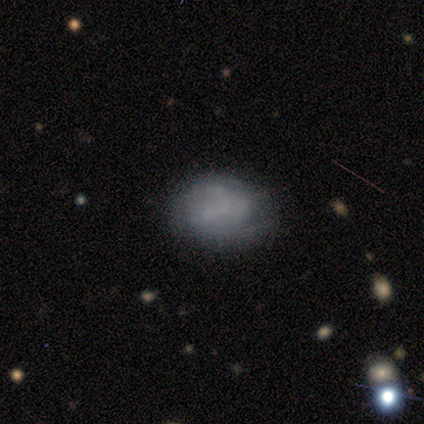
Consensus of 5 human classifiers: smooth-or-featured: featured or disk: 60% | smooth: 40% | star or artifact: 0%
  disk-edge-on: no: 100% | yes: 0%
    bar: no: 100% | strong: 0% | weak: 0%
    has-spiral-arms: yes: 67% | no: 33%
      spiral-winding: medium: 50% (tied) | loose: 50% (tied) | tight: 0%
      spiral-arm-count: can't tell: 100% | 1: 0% | 2: 0% | 3: 0% | 4: 0% | more than 4: 0%
    bulge-size: none: 100% | dominant: 0% | large: 0% | moderate: 0% | small: 0%
  merging: none: 60% | minor disturbance: 40% | major disturbance: 0% | merger: 0%